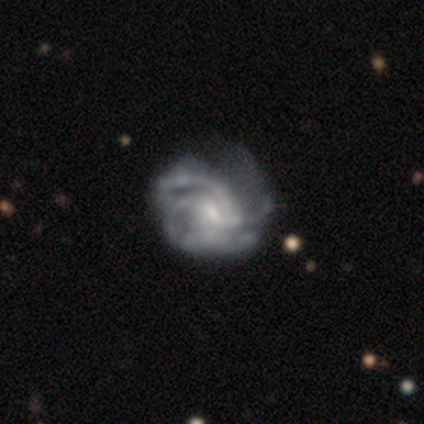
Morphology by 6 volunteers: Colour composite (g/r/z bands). It shows a featured or disk galaxy (100%) with a weak bar (67%), medium (60%) spiral arms (83%) and a small central bulge (83%). Merging: none (33%, tied with minor disturbance and major disturbance).